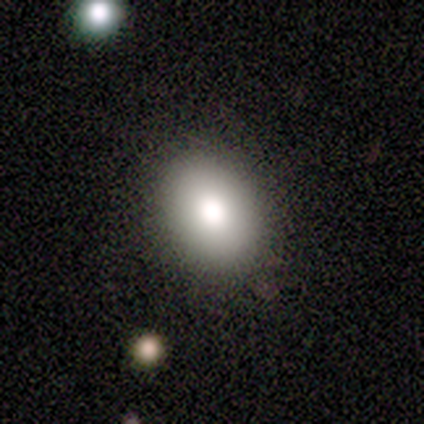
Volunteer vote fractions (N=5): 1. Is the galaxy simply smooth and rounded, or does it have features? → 100% smooth, 0% featured or disk, 0% star or artifact.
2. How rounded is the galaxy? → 80% in between, 20% round, 0% cigar-shaped.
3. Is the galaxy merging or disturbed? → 100% none, 0% minor disturbance, 0% major disturbance, 0% merger.